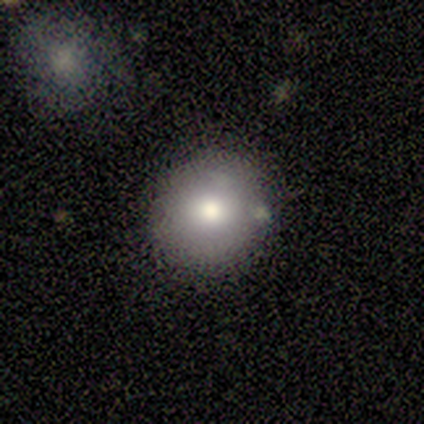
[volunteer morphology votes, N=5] Smooth or featured? smooth (60%)
How rounded? round (100%)
Merging? none (100%)